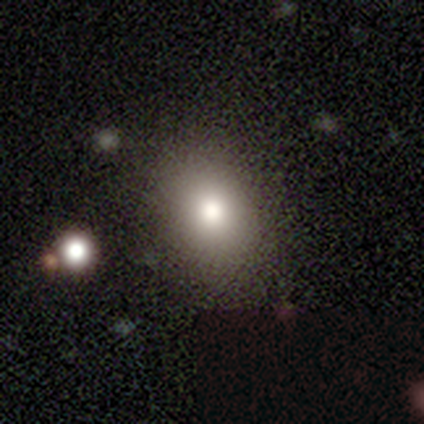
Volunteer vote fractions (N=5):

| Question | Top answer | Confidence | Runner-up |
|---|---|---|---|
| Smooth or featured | smooth | 80% | featured or disk (20%) |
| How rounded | round | 50% | tied: in between (50%) |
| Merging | none | 80% | minor disturbance (20%) |